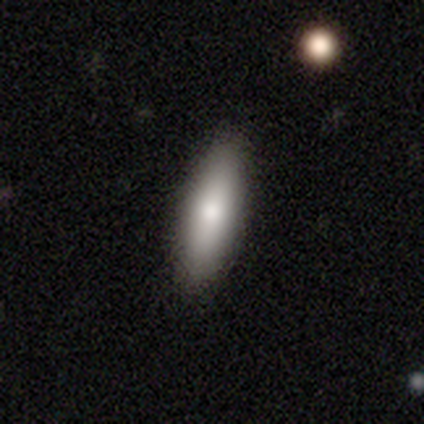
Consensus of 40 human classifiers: Volunteers were most divided on "how rounded": cigar-shaped: 52%, in between: 48%, round: 0%. More confident: merging — none (97%); smooth or featured — smooth (72%).